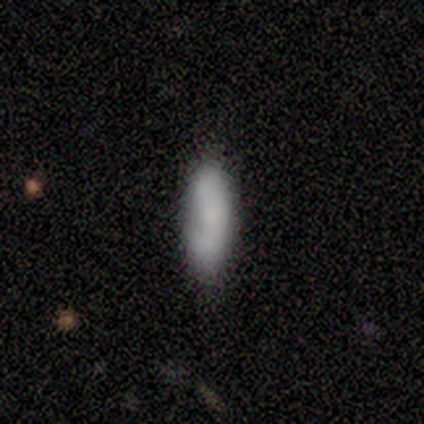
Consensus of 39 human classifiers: smooth 77%, featured or disk 13%, star or artifact 10%. Down the decision tree: how rounded — in between (57%); merging — none (69%).